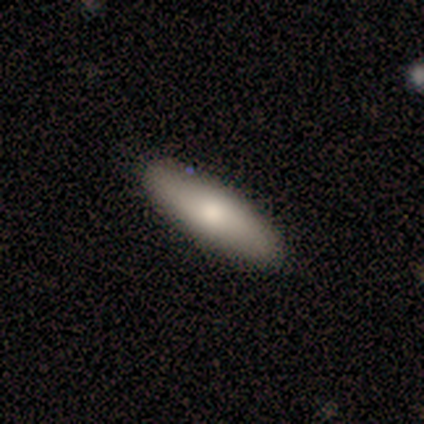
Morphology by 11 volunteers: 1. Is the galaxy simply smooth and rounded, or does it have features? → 82% smooth, 18% featured or disk, 0% star or artifact.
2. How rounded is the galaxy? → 67% cigar-shaped, 33% in between, 0% round.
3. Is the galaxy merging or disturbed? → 73% none, 27% minor disturbance, 0% major disturbance, 0% merger.